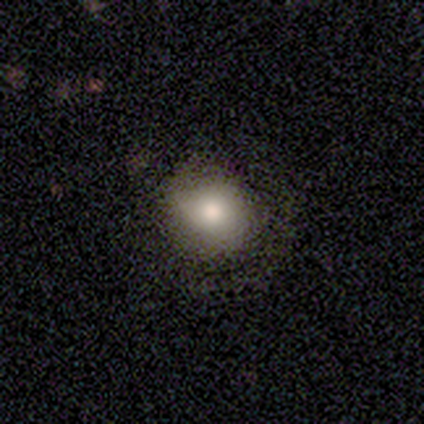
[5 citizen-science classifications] A smooth galaxy with no disk features (80%) that is round (100%). Merging: none (50%).